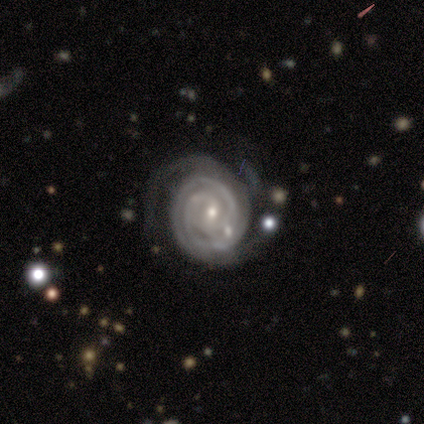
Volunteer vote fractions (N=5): Smooth or featured: featured or disk — 100%
Edge-on disk: no — 100%
Bar: weak — 80% (no — 20%)
Spiral arms: yes — 100%
Spiral winding: tight — 80% (medium — 20%)
Spiral arm count: 2 — 80% (3 — 20%)
Bulge size: small — 80% (moderate — 20%)
Merging: minor disturbance — 60% (none — 40%)